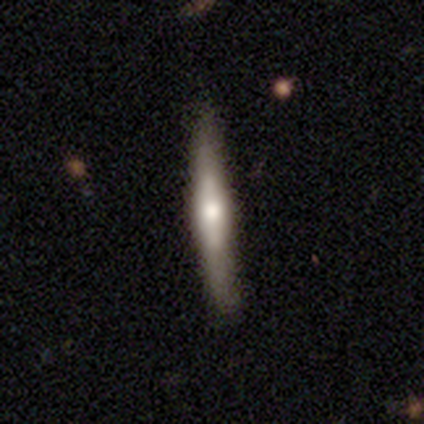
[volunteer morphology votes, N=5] type=smooth (40%, tied with featured or disk); roundness=cigar-shaped (100%); merging=none (75%).